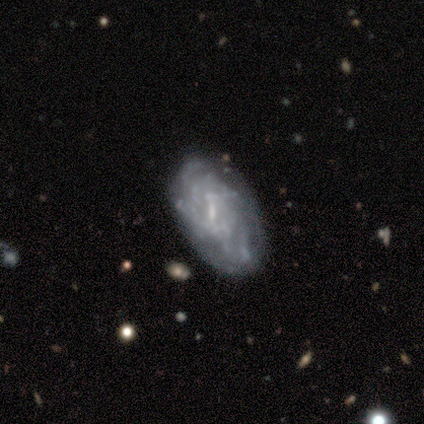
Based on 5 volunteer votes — A featured or disk galaxy (100%) with a weak bar (80%), 3 (33%, tied with more than 4 and can't tell) tight (100%) spiral arms (60%) and a small central bulge (60%). Merging: none (40%, tied with minor disturbance).